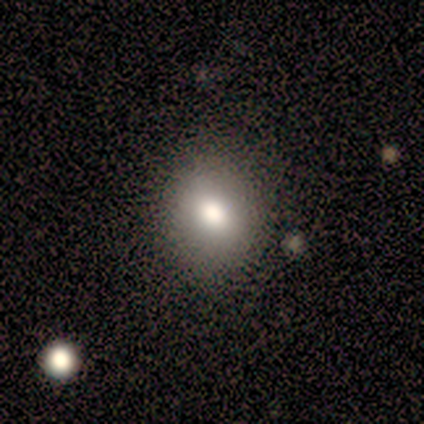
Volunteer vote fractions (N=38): Q: Smooth or featured?
A: smooth (71%); runner-up: featured or disk (18%)
Q: How rounded?
A: round (70%); runner-up: in between (30%)
Q: Merging?
A: none (85%); runner-up: minor disturbance (6%)